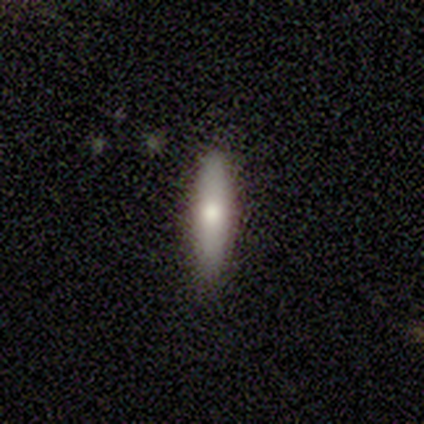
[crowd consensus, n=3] A smooth galaxy with no disk features (67%) that is in between round and cigar-shaped (50%, tied with cigar-shaped).

Vote fractions:
- Smooth or featured? smooth: 67% / featured or disk: 33% / star or artifact: 0%
- How rounded? in between: 50% (tied) / cigar-shaped: 50% (tied) / round: 0%
- Merging? none: 100% / minor disturbance: 0% / major disturbance: 0% / merger: 0%